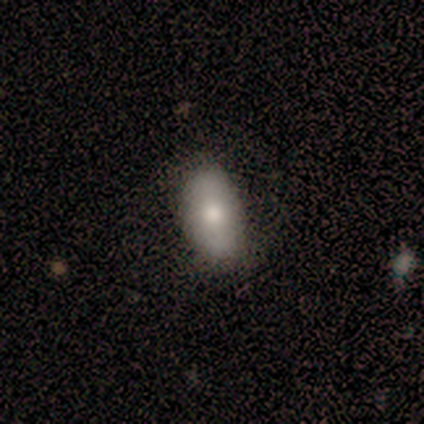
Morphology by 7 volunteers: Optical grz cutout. It shows a smooth galaxy with no disk features (86%) that is in between round and cigar-shaped (100%). Merging: none (71%).